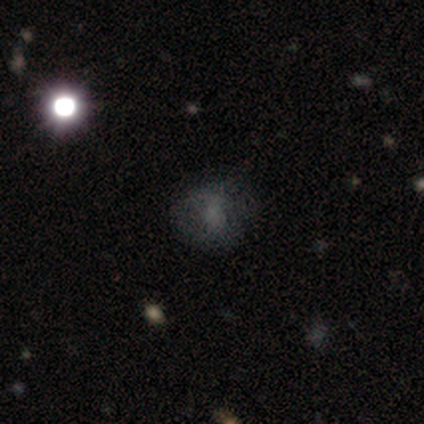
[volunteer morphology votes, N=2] type=smooth (50%, tied with featured or disk); roundness=round (100%); merging=major disturbance (100%).